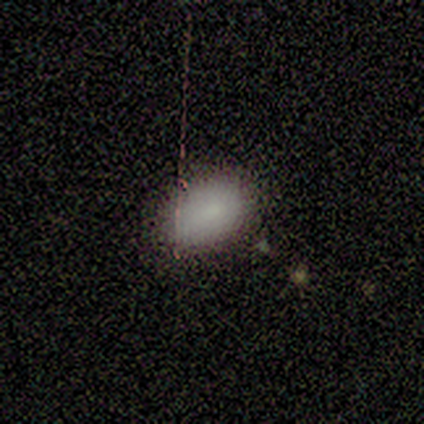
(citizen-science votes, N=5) This appears to be a smooth galaxy with no disk features (80%) that is in between round and cigar-shaped (75%). Merging: none (75%).